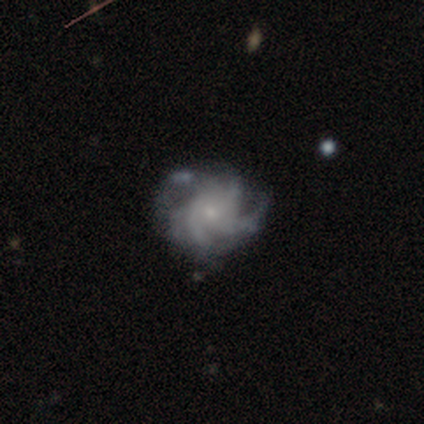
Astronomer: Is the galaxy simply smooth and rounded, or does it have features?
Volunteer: featured or disk — 86%.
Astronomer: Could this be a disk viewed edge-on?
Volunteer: no — 99%.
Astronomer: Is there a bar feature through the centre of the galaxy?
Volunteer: no — 74%.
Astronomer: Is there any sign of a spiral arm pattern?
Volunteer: yes — 98%.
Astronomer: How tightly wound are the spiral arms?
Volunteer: medium — 51% (runner-up: tight, 42%).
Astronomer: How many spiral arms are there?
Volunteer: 3 — 32% (runner-up: 4, 31%).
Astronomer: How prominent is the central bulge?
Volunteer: small — 85%.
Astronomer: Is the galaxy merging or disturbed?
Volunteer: none — 61%.